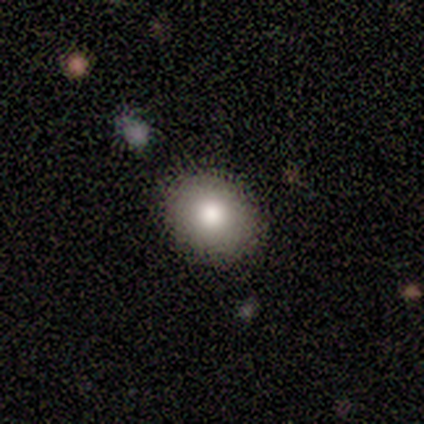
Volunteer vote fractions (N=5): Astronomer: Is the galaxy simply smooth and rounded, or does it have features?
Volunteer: smooth — 100%.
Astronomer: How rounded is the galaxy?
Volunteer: round — 80%.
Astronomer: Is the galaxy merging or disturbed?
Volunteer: none — 100%.